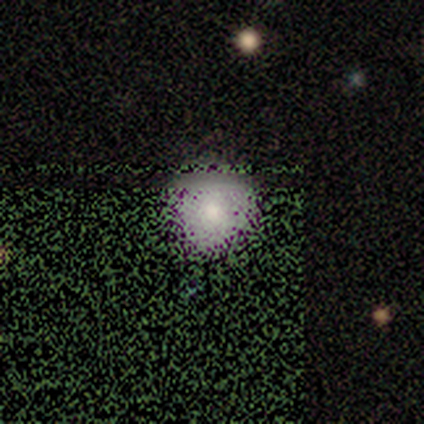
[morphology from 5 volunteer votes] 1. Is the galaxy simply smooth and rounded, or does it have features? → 60% smooth, 40% star or artifact, 0% featured or disk.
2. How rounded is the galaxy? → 100% round, 0% in between, 0% cigar-shaped.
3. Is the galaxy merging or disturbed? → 100% none, 0% minor disturbance, 0% major disturbance, 0% merger.